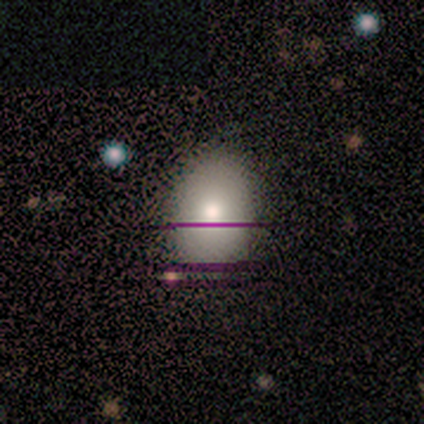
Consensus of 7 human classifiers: Q: Smooth or featured?
A: smooth (71%); runner-up: featured or disk (14%)
Q: How rounded?
A: in between (100%)
Q: Merging?
A: none (67%); runner-up: minor disturbance (33%)